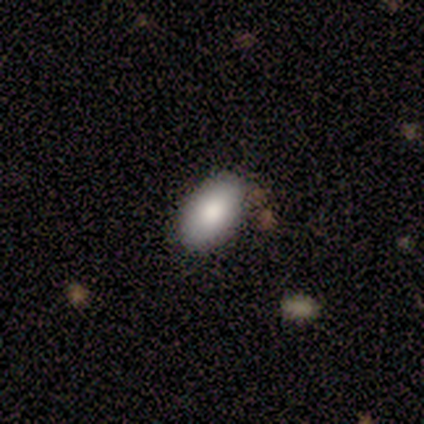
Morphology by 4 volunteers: Q: Smooth or featured?
A: smooth (75%); runner-up: featured or disk (25%)
Q: How rounded?
A: in between (100%)
Q: Merging?
A: none (100%)